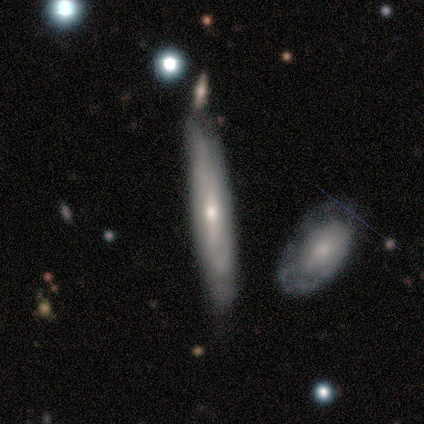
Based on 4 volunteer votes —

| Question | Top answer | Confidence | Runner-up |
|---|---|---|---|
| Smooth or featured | featured or disk | 75% | smooth (25%) |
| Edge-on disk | no | 67% | yes (33%) |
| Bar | strong | 50% | tied: no (50%) |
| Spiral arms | yes | 50% | tied: no (50%) |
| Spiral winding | loose | 100% | — |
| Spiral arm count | can't tell | 100% | — |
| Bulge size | small | 100% | — |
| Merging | none | 75% | merger (25%) |